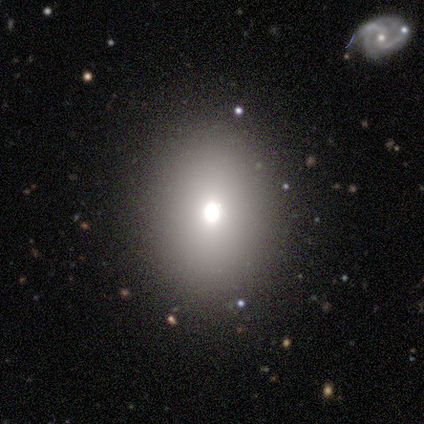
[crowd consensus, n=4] Smooth or featured: smooth — 75% (featured or disk — 25%)
How rounded: in between — 67% (round — 33%)
Merging: none — 75% (minor disturbance — 25%)